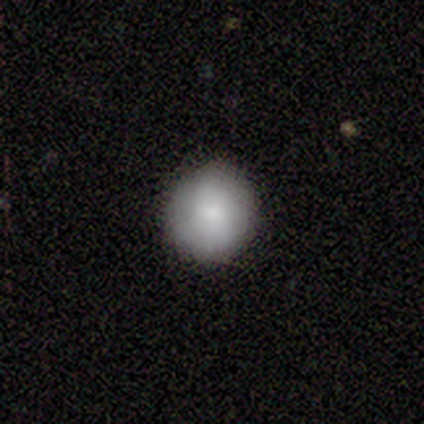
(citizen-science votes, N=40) Smooth or featured: smooth — 70% (featured or disk — 25%)
How rounded: round — 86% (in between — 14%)
Merging: none — 79% (minor disturbance — 18%)